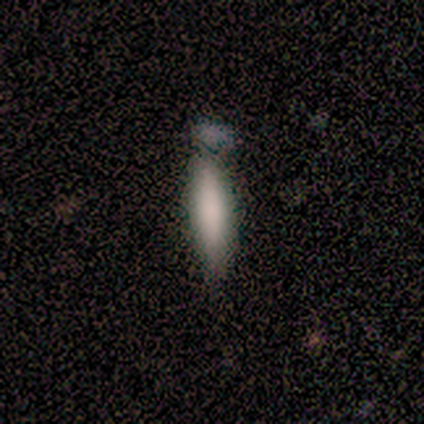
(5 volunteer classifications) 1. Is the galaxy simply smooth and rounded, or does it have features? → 100% smooth, 0% featured or disk, 0% star or artifact.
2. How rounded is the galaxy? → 100% cigar-shaped, 0% round, 0% in between.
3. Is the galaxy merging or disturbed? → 60% minor disturbance, 20% none, 20% merger, 0% major disturbance.